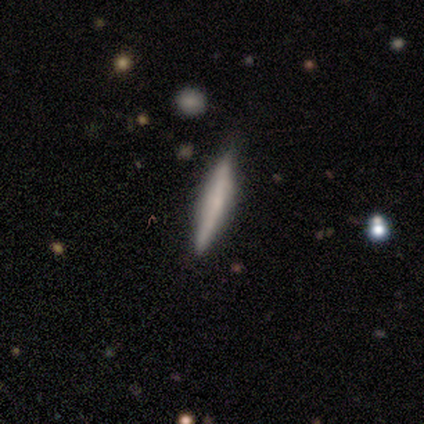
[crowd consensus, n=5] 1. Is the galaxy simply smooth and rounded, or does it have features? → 100% smooth, 0% featured or disk, 0% star or artifact.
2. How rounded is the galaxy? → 80% cigar-shaped, 20% in between, 0% round.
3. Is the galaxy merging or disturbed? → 80% none, 20% minor disturbance, 0% major disturbance, 0% merger.